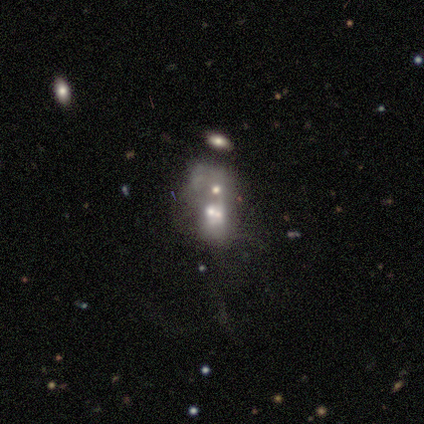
smooth_or_featured: featured or disk (p=0.47) [alt: smooth p=0.34]
disk_edge_on: no (p=0.94) [alt: yes p=0.06]
bar: no (p=0.94) [alt: weak p=0.06]
has_spiral_arms: no (p=0.76) [alt: yes p=0.24]
bulge_size: small (p=0.41) [alt: moderate p=0.29]
merging: merger (p=0.58)